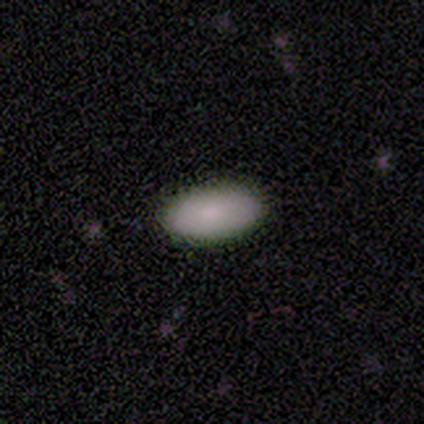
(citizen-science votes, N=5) Smooth or featured? 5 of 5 (100%) said smooth. How rounded? 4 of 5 (80%) said in between. Merging? 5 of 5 (100%) said none.